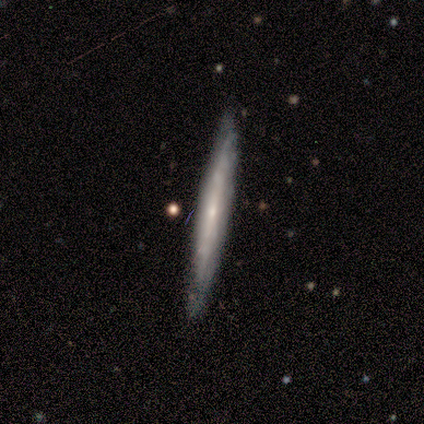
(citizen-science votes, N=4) smooth_or_featured: featured or disk (p=0.75) [alt: smooth p=0.25]
disk_edge_on: yes (p=1.00)
edge_on_bulge: boxy (p=0.33) [tied with: none p=0.33, rounded p=0.33]
merging: none (p=0.75) [alt: minor disturbance p=0.25]